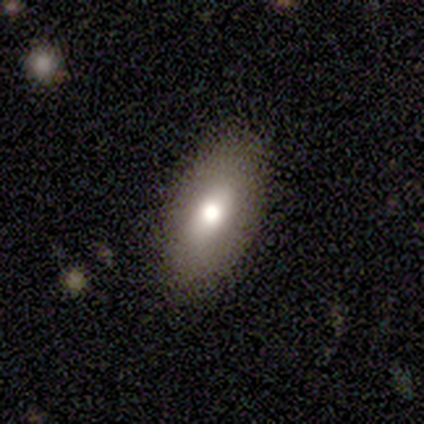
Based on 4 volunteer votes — Smooth or featured?
  - smooth: 75% *
  - featured or disk: 25%
  - star or artifact: 0%
How rounded?
  - in between: 67% *
  - cigar-shaped: 33%
  - round: 0%
Merging?
  - none: 50% * (tied)
  - minor disturbance: 50% * (tied)
  - major disturbance: 0%
  - merger: 0%